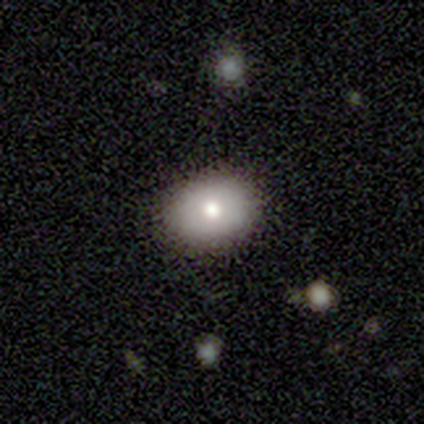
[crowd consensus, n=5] Morphology: type=smooth (40%, tied with featured or disk); roundness=round (50%, tied with in between); merging=none (100%).